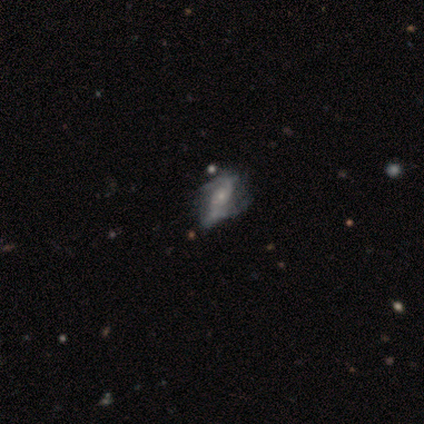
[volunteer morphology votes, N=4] Q: Smooth or featured?
A: featured or disk (75%); runner-up: smooth (25%)
Q: Edge-on disk?
A: no (100%)
Q: Bar?
A: no (67%); runner-up: weak (33%)
Q: Spiral arms?
A: yes (100%)
Q: Spiral winding?
A: tight (33%); tied with: medium (33%); loose (33%)
Q: Spiral arm count?
A: 2 (67%); runner-up: can't tell (33%)
Q: Bulge size?
A: small (100%)
Q: Merging?
A: major disturbance (50%); runner-up: none (25%)